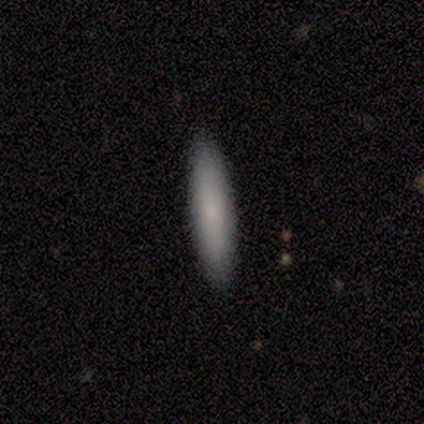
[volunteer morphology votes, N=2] smooth-or-featured: smooth: 100% | featured or disk: 0% | star or artifact: 0%
  how-rounded: in between: 50% (tied) | cigar-shaped: 50% (tied) | round: 0%
  merging: none: 100% | minor disturbance: 0% | major disturbance: 0% | merger: 0%